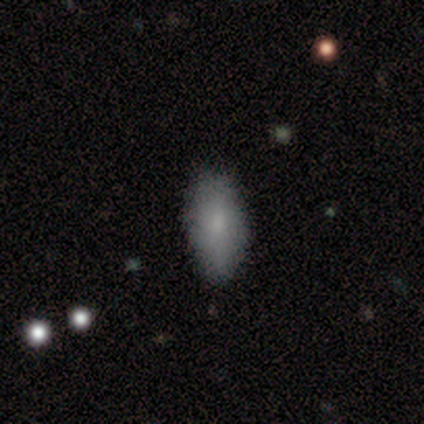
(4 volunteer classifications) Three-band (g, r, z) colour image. It shows a smooth galaxy with no disk features (75%) that is in between round and cigar-shaped (67%). Merging: none (100%).